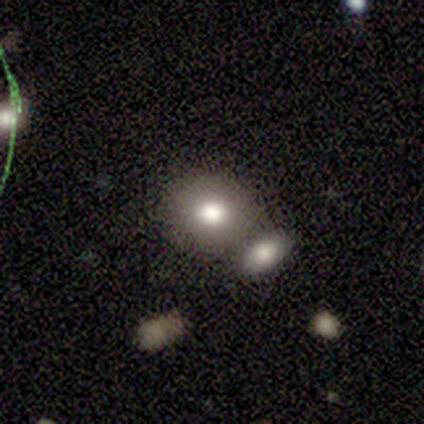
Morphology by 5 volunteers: A smooth galaxy with no disk features (100%) that is round (80%). Merging: none (40%, tied with merger).